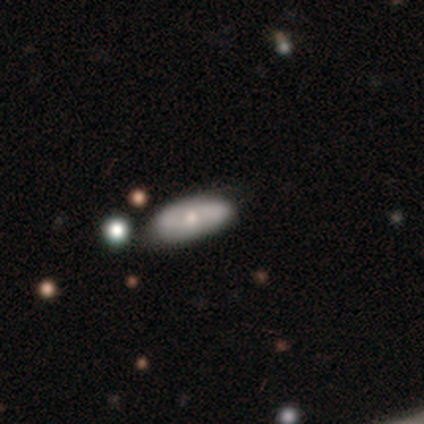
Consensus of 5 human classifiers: Morphology: type=featured or disk (60%); edge-on=no (67%); bar=no (100%); spiral arms=no (100%); bulge=moderate (100%); merging=none (80%).